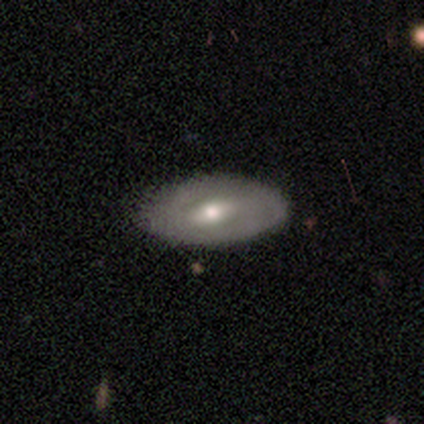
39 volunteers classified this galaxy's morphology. type=smooth (49%); roundness=in between (79%); merging=none (81%).